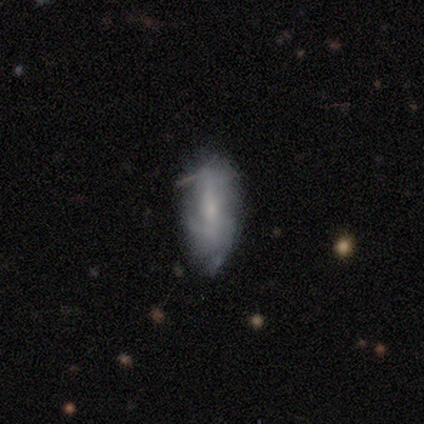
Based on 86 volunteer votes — smooth-or-featured: featured or disk: 50% | smooth: 45% | star or artifact: 5%
  disk-edge-on: no: 84% | yes: 16%
    bar: no: 42% | weak: 39% | strong: 19%
    has-spiral-arms: yes: 56% | no: 44%
      spiral-winding: medium: 50% | tight: 25% | loose: 25%
      spiral-arm-count: can't tell: 60% | 2: 25% | 1: 5% | 3: 5% | 4: 5% | more than 4: 0%
    bulge-size: small: 56% | moderate: 25% | none: 17% | large: 3% | dominant: 0%
  merging: none: 56% | minor disturbance: 37% | major disturbance: 7% | merger: 0%